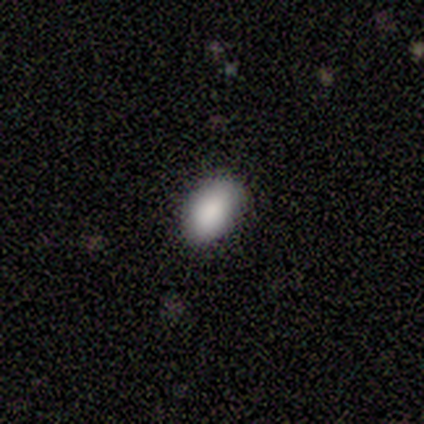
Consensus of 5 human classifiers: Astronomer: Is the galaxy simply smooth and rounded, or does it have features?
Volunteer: smooth — 100%.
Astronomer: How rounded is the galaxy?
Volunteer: in between — 100%.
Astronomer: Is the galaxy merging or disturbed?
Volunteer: none — 100%.